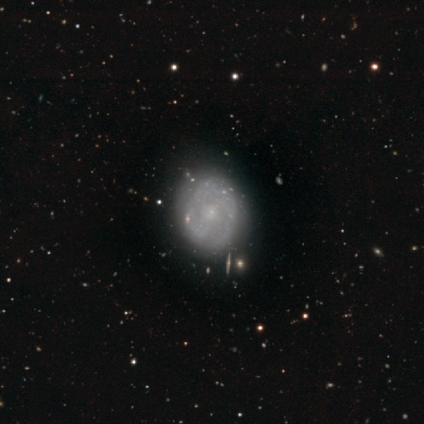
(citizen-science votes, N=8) featured or disk 88%, star or artifact 12%, smooth 0%. Down the decision tree: edge-on disk — no (100%); bar — no (71%); spiral arms — yes (100%); spiral arm count — 2 (29%, tied with 4 and can't tell); spiral winding — medium (43%); bulge size — small (86%); merging — none (57%).